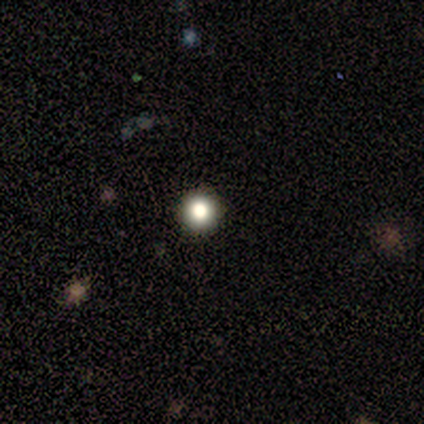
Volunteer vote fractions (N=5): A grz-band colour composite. It shows a smooth galaxy with no disk features (80%) that is round (100%). Merging: none (100%).